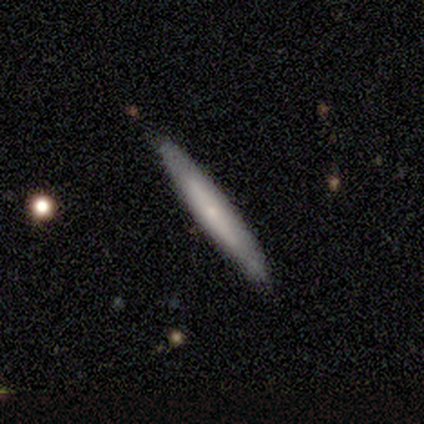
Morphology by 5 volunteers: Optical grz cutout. It shows a smooth galaxy with no disk features (60%) that is cigar-shaped (100%). Merging: none (100%).